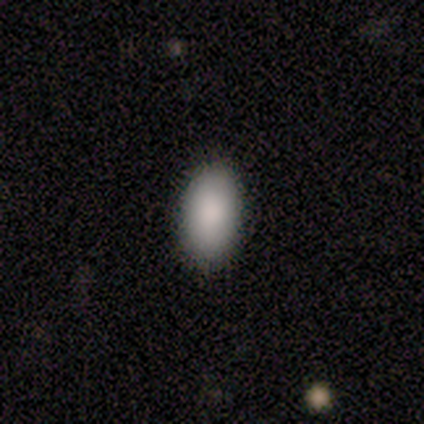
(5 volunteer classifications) Smooth or featured? smooth (80%)
How rounded? in between (100%)
Merging? none (100%)